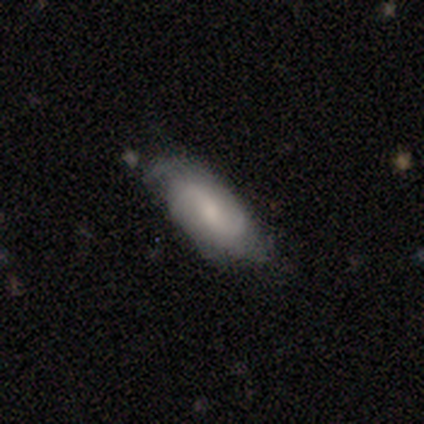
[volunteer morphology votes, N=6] Volunteers were most divided on "merging": none: 50%, minor disturbance: 33%, major disturbance: 17%, merger: 0%. More confident: smooth or featured — smooth (83%); how rounded — in between (80%).